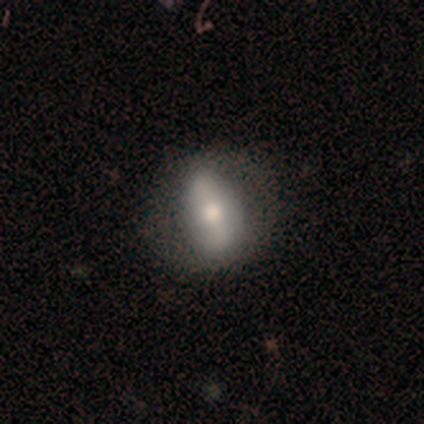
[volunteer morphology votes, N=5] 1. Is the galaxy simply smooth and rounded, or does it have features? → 60% smooth, 40% featured or disk, 0% star or artifact.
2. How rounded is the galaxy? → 100% in between, 0% round, 0% cigar-shaped.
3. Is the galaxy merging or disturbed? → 60% minor disturbance, 40% none, 0% major disturbance, 0% merger.